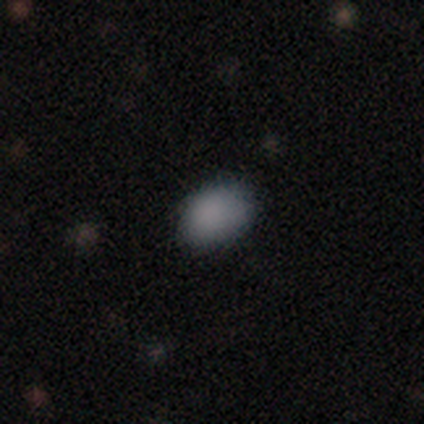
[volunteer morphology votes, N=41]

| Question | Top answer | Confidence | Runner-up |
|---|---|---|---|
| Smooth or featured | smooth | 83% | featured or disk (10%) |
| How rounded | in between | 88% | round (9%) |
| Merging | none | 71% | minor disturbance (26%) |